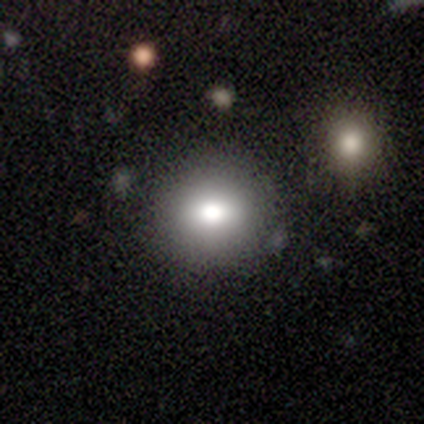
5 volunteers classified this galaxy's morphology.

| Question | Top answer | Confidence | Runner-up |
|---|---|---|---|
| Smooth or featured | smooth | 80% | featured or disk (20%) |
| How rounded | round | 50% | tied: in between (50%) |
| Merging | none | 100% | — |